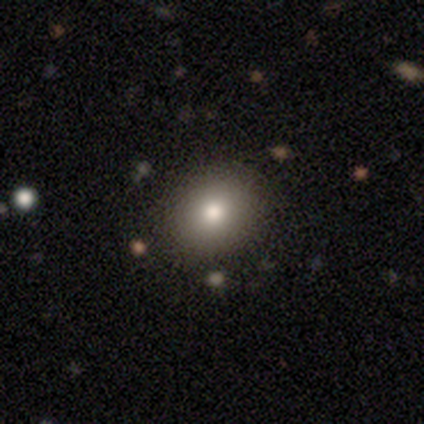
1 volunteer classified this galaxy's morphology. Smooth or featured? star or artifact (100%)